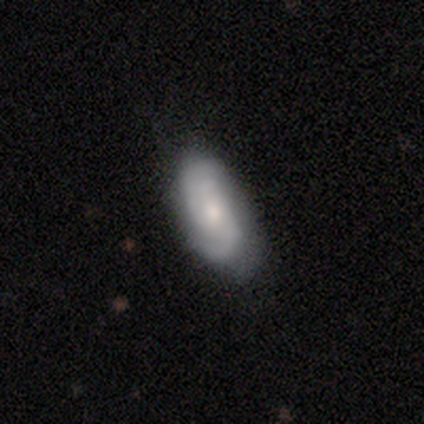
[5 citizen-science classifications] Smooth or featured? 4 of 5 (80%) said featured or disk. Edge-on disk? 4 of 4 (100%) said no. Bar? 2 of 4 (50%, tied with no) said weak. Spiral arms? 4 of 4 (100%) said yes. Spiral winding? 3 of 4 (75%) said tight. Spiral arm count? 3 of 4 (75%) said 2. Bulge size? 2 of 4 (50%, tied with small) said moderate. Merging? 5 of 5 (100%) said none.